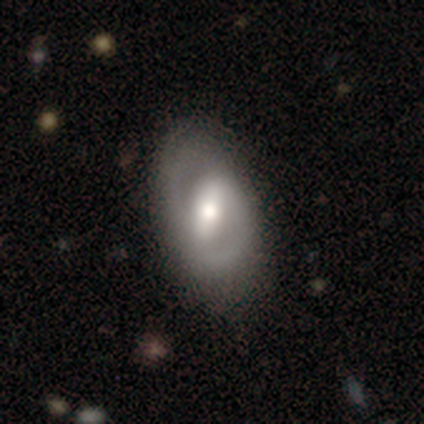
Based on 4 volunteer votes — A smooth galaxy with no disk features (50%, tied with featured or disk) that is in between round and cigar-shaped (100%).

Vote fractions:
- Smooth or featured? smooth: 50% (tied) / featured or disk: 50% (tied) / star or artifact: 0%
- How rounded? in between: 100% / round: 0% / cigar-shaped: 0%
- Merging? none: 50% / minor disturbance: 25% / major disturbance: 25% / merger: 0%